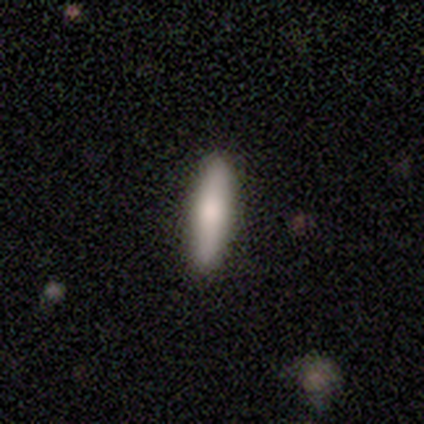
smooth 100%, featured or disk 0%, star or artifact 0%. Down the decision tree: how rounded — cigar-shaped (100%); merging — none (80%).